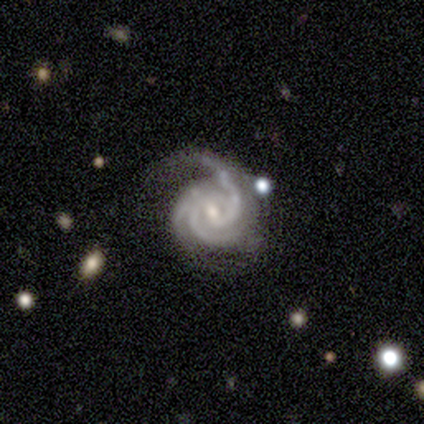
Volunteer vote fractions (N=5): Morphology: type=featured or disk (100%); edge-on=no (100%); bar=weak (40%, tied with no); spiral arms=yes (100%); winding=tight (80%); arm count=3 (80%); bulge=small (60%); merging=none (60%).